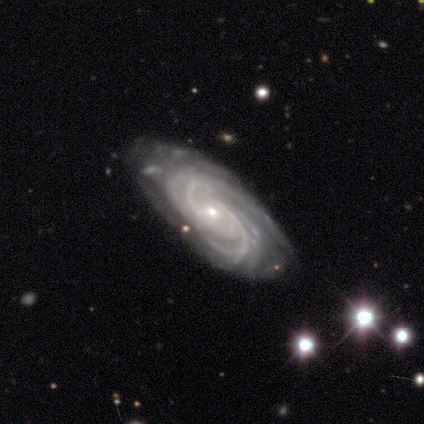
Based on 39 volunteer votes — Smooth or featured?
  - featured or disk: 92% *
  - star or artifact: 5%
  - smooth: 3%
Edge-on disk?
  - no: 94% *
  - yes: 6%
Bar?
  - no: 74% *
  - weak: 21%
  - strong: 6%
Spiral arms?
  - yes: 100% *
  - no: 0%
Spiral winding?
  - tight: 74% *
  - medium: 26%
  - loose: 0%
Spiral arm count?
  - 2: 24% * (tied)
  - more than 4: 24% * (tied)
  - 3: 21%
  - can't tell: 18%
  - 4: 15%
  - 1: 0%
Bulge size?
  - small: 74% *
  - moderate: 24%
  - dominant: 3%
  - large: 0%
  - none: 0%
Merging?
  - none: 84% *
  - minor disturbance: 11%
  - major disturbance: 5%
  - merger: 0%